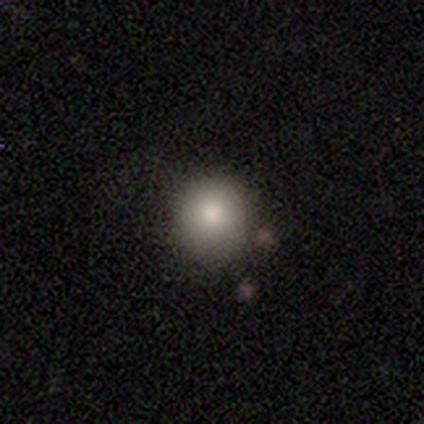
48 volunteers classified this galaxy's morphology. smooth-or-featured: smooth: 77% | featured or disk: 19% | star or artifact: 4%
  how-rounded: round: 95% | in between: 5% | cigar-shaped: 0%
  merging: none: 74% | minor disturbance: 15% | merger: 9% | major disturbance: 2%